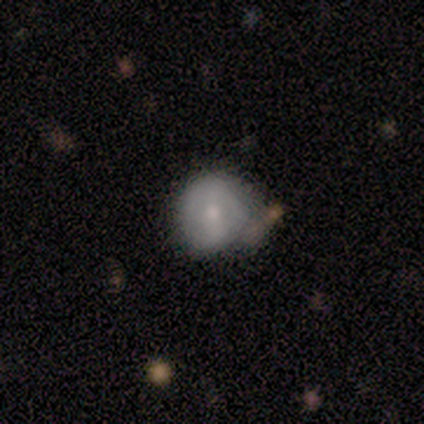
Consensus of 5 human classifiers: smooth 60%, featured or disk 40%, star or artifact 0%. Down the decision tree: how rounded — round (100%); merging — none (80%).